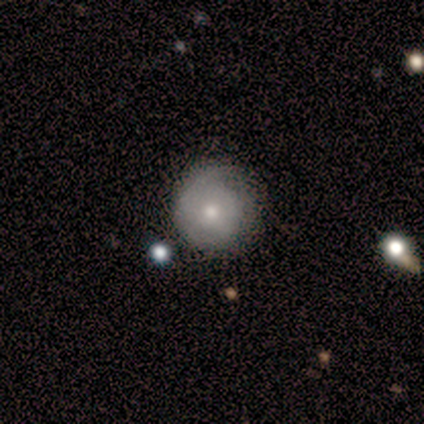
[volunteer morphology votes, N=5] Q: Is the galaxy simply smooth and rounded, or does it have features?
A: smooth — 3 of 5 (60%).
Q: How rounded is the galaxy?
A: round — 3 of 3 (100%).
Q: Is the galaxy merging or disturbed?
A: minor disturbance — 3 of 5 (60%).